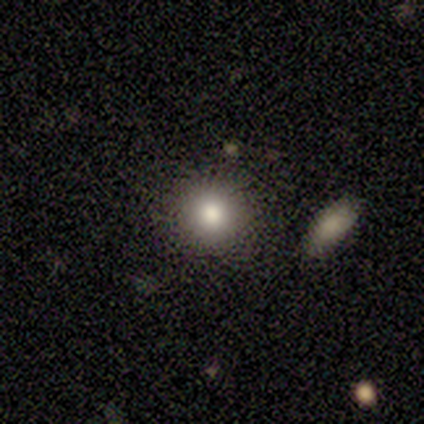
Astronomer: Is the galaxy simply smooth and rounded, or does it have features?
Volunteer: smooth — 80%.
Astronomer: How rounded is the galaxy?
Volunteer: round — 100%.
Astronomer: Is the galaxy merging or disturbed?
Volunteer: none — 100%.